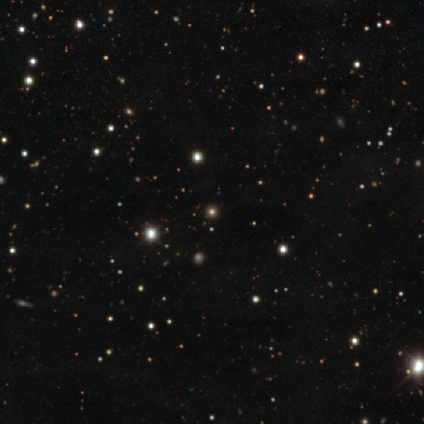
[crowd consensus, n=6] Smooth or featured? 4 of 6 (67%) said star or artifact.